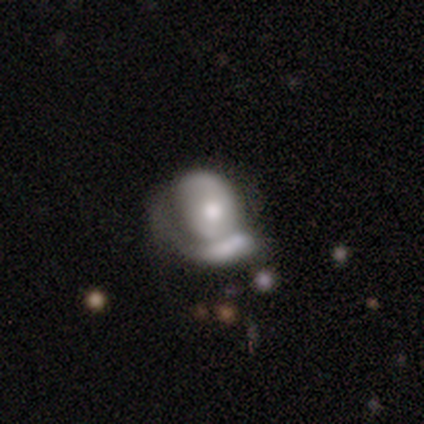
Volunteers were most divided on "bulge size": small: 50%, moderate: 40%, large: 10%, dominant: 0%, none: 0%. Remaining: edge-on disk — no (100%); bar — no (80%); spiral arm count — 2 (71%); spiral arms — yes (70%); smooth or featured — featured or disk (67%); spiral winding — tight (57%); merging — major disturbance (47%).